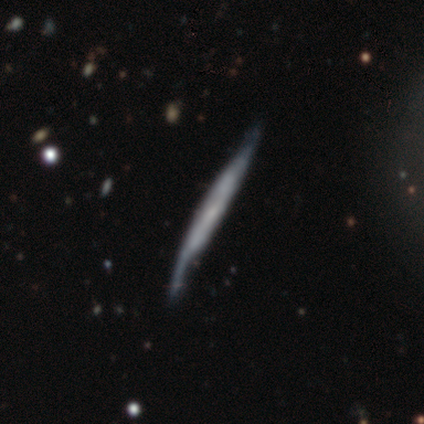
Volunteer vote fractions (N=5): A featured or disk galaxy (80%) viewed edge-on (75%) with a boxy central bulge (33%, tied with none and rounded). Merging: none (40%, tied with minor disturbance).